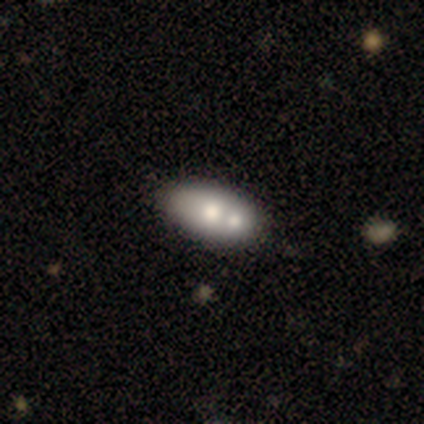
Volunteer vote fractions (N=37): Smooth or featured? 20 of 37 (54%) said smooth. How rounded? 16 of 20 (80%) said in between. Merging? 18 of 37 (49%) said merger.